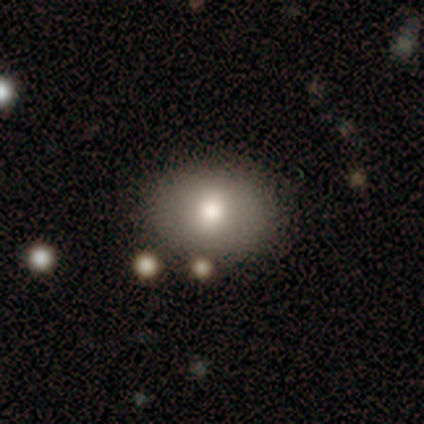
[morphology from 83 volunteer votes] Overall: smooth (66%). How rounded: in between (64%; round 36%). Merging: none (82%).